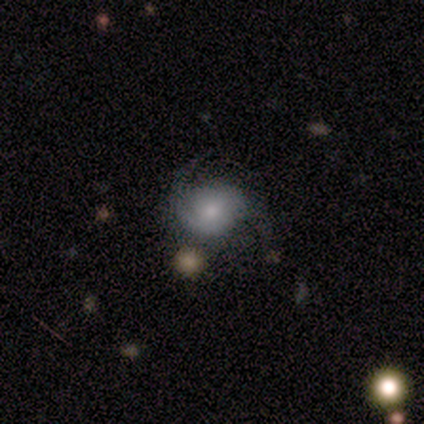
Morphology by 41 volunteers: Smooth or featured?
  - featured or disk: 59% *
  - smooth: 29%
  - star or artifact: 12%
Edge-on disk?
  - no: 96% *
  - yes: 4%
Bar?
  - no: 65% *
  - weak: 35%
  - strong: 0%
Spiral arms?
  - yes: 91% *
  - no: 9%
Spiral winding?
  - loose: 52% *
  - medium: 29%
  - tight: 19%
Spiral arm count?
  - 2: 81% *
  - can't tell: 10%
  - 1: 5%
  - 3: 5%
  - 4: 0%
  - more than 4: 0%
Bulge size?
  - small: 57% *
  - moderate: 26%
  - large: 13%
  - dominant: 4%
  - none: 0%
Merging?
  - none: 56% *
  - minor disturbance: 28%
  - merger: 11%
  - major disturbance: 6%